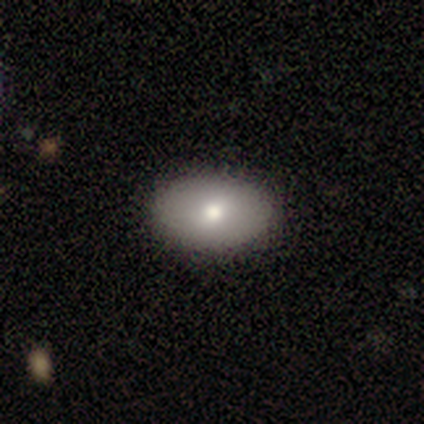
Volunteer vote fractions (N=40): Morphology: type=smooth (82%); roundness=in between (97%); merging=none (65%).